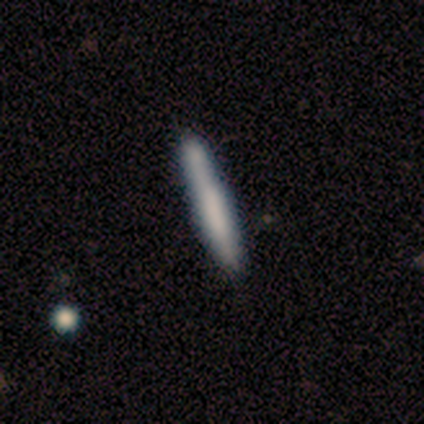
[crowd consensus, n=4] smooth_or_featured: smooth (p=0.50) [tied with: featured or disk p=0.50]
how_rounded: cigar-shaped (p=1.00)
merging: none (p=0.75) [alt: minor disturbance p=0.25]